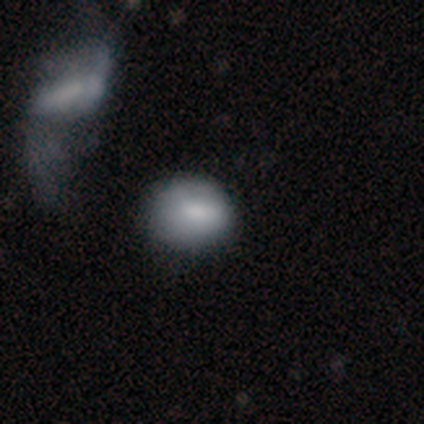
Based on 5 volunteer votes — smooth_or_featured: smooth (p=0.80) [alt: featured or disk p=0.20]
how_rounded: round (p=0.50) [tied with: in between p=0.50]
merging: none (p=0.80) [alt: minor disturbance p=0.20]